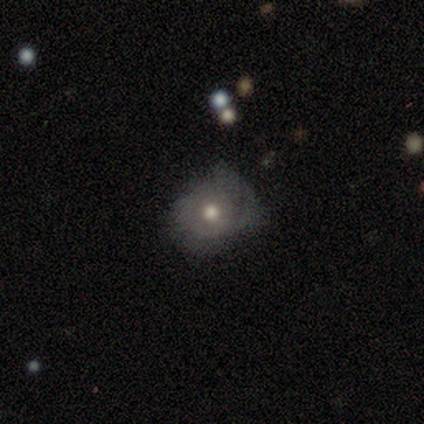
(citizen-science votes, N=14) Overall: featured or disk (50%; smooth 36%). Edge-on disk: no (100%). Bar: no (100%). Spiral arms: yes (57%; no 43%). Spiral arm count: can't tell (50%; 2 25%). Spiral winding: tight (50%, tied with medium). Bulge size: moderate (86%). Merging: none (75%).